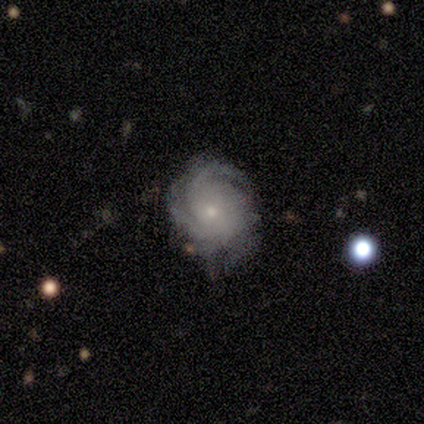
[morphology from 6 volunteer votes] featured or disk 100%, smooth 0%, star or artifact 0%. Down the decision tree: edge-on disk — no (100%); bar — no (67%); spiral arms — yes (100%); spiral arm count — 3 (50%); spiral winding — tight (50%, tied with medium); bulge size — small (83%); merging — none (67%).